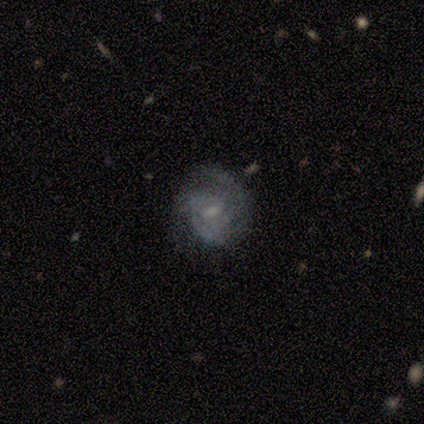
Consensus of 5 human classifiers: featured or disk 80%, smooth 20%, star or artifact 0%. Down the decision tree: edge-on disk — no (100%); bar — weak (100%); spiral arms — yes (100%); spiral arm count — can't tell (50%); spiral winding — tight (50%, tied with medium); bulge size — small (75%); merging — none (80%).